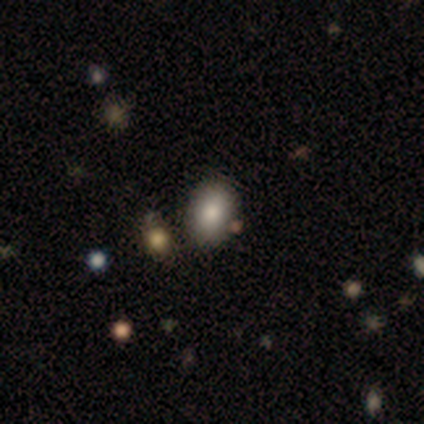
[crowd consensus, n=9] Morphology: type=smooth (100%); roundness=in between (100%); merging=none (78%).